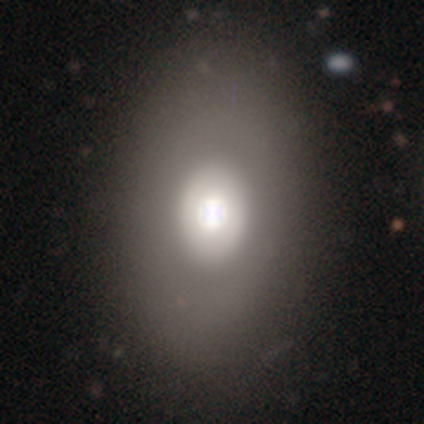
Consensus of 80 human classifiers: A smooth galaxy with no disk features (57%) that is in between round and cigar-shaped (80%).

Vote fractions:
- Smooth or featured? smooth: 57% / featured or disk: 36% / star or artifact: 6%
- How rounded? in between: 80% / round: 15% / cigar-shaped: 4%
- Merging? none: 45% / merger: 5% / major disturbance: 4% / minor disturbance: 3%